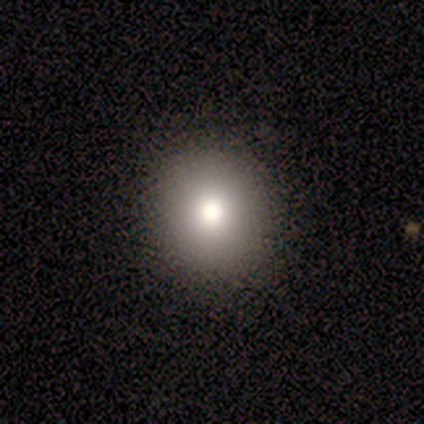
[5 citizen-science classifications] Morphology: type=smooth (60%); roundness=round (100%); merging=none (100%).